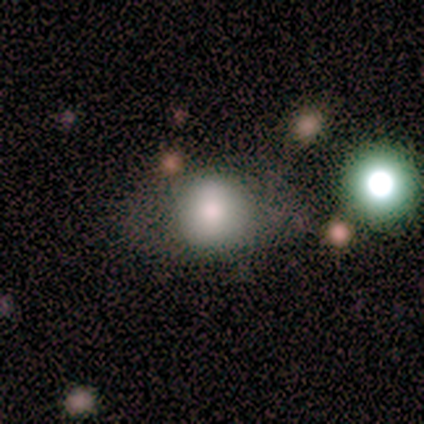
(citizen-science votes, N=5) smooth-or-featured: smooth: 60% | featured or disk: 40% | star or artifact: 0%
  how-rounded: round: 100% | in between: 0% | cigar-shaped: 0%
  merging: none: 80% | minor disturbance: 20% | major disturbance: 0% | merger: 0%